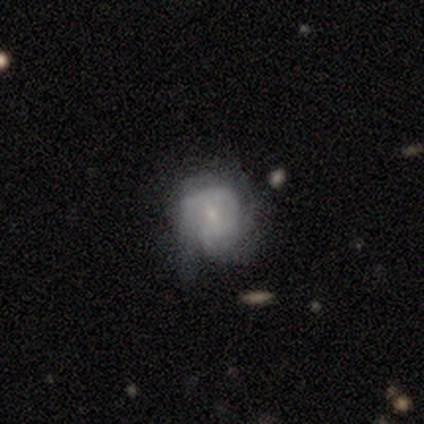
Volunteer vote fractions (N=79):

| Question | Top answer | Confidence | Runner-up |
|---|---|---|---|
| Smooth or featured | featured or disk | 66% | smooth (29%) |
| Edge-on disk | no | 96% | yes (4%) |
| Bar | no | 72% | weak (26%) |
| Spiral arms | yes | 56% | no (44%) |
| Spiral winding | tight | 57% | medium (43%) |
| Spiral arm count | can't tell | 54% | 3 (21%) |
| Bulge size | small | 72% | moderate (16%) |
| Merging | minor disturbance | 29% | none (15%) |